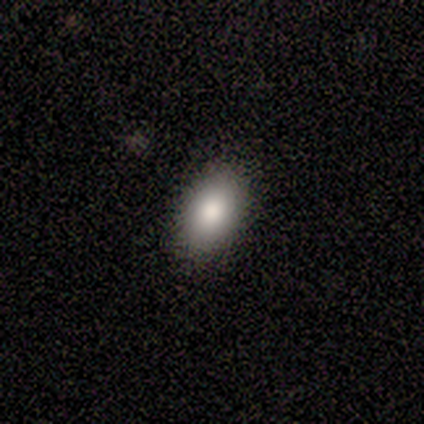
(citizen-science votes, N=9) smooth 89%, star or artifact 11%, featured or disk 0%. Down the decision tree: how rounded — in between (88%); merging — none (100%).